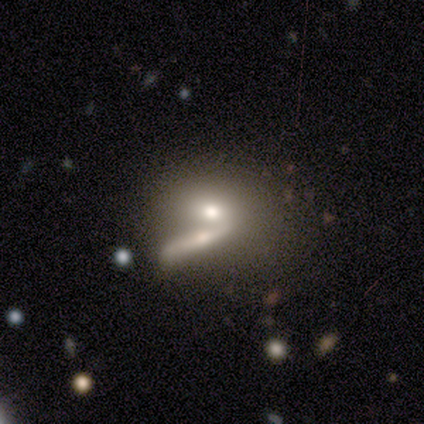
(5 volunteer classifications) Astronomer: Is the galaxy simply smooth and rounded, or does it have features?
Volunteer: smooth — 80%.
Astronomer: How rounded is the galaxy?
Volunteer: in between — 75%.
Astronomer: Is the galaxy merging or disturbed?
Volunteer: merger — 60% (runner-up: minor disturbance, 40%).